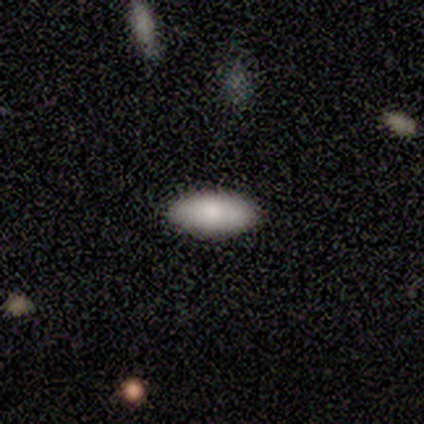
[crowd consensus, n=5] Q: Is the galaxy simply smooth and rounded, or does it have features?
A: smooth — 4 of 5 (80%).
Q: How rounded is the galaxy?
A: in between — 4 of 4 (100%).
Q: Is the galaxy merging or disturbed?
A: none — 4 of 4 (100%).